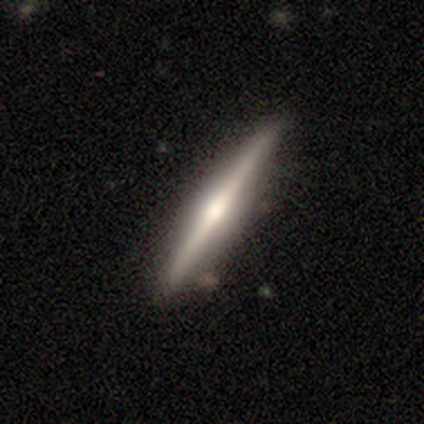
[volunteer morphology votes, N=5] Smooth or featured: featured or disk — 60% (smooth — 40%)
Edge-on disk: yes — 100%
Edge-on bulge: rounded — 100%
Merging: none — 100%